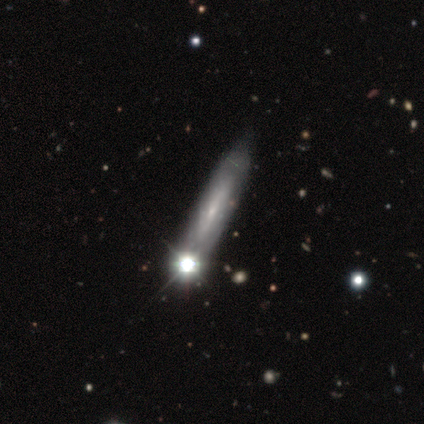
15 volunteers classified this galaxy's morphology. Q: Smooth or featured?
A: featured or disk (73%); runner-up: star or artifact (27%)
Q: Edge-on disk?
A: yes (73%); runner-up: no (27%)
Q: Edge-on bulge?
A: none (38%); tied with: rounded (38%)
Q: Merging?
A: none (45%); runner-up: minor disturbance (27%)